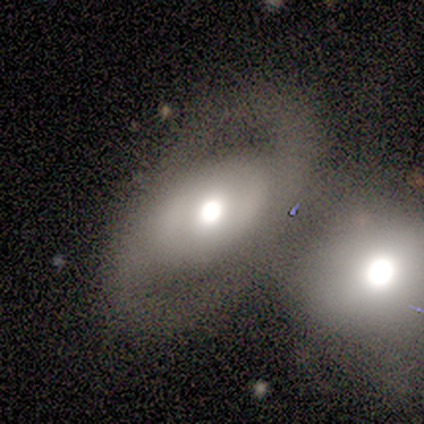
Smooth or featured? 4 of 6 (67%) said featured or disk. Edge-on disk? 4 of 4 (100%) said no. Bar? 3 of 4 (75%) said no. Spiral arms? 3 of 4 (75%) said yes. Spiral winding? 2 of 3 (67%) said loose. Spiral arm count? 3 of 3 (100%) said 2. Bulge size? 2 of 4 (50%, tied with moderate) said large. Merging? 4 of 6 (67%) said merger.